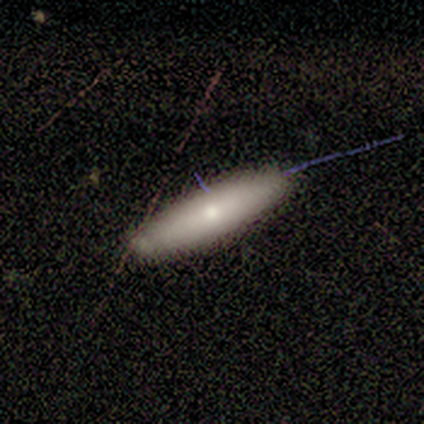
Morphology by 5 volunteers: Smooth or featured? smooth (80%)
How rounded? cigar-shaped (100%)
Merging? none (80%)